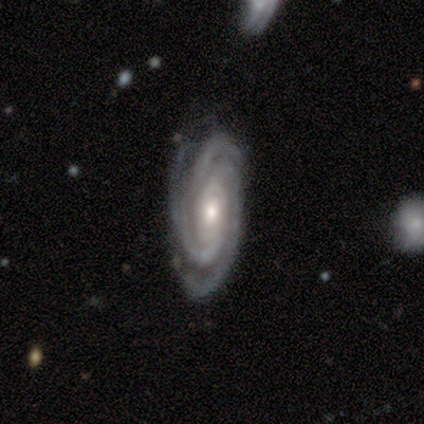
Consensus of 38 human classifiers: Morphology: type=featured or disk (97%); edge-on=no (97%); bar=no (69%); spiral arms=yes (100%); winding=tight (81%); arm count=3 (83%); bulge=moderate (61%); merging=none (76%).